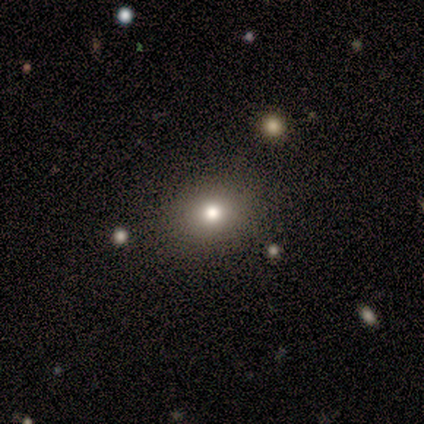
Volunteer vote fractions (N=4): Smooth or featured? smooth (50%)
How rounded? in between (100%)
Merging? none (67%)